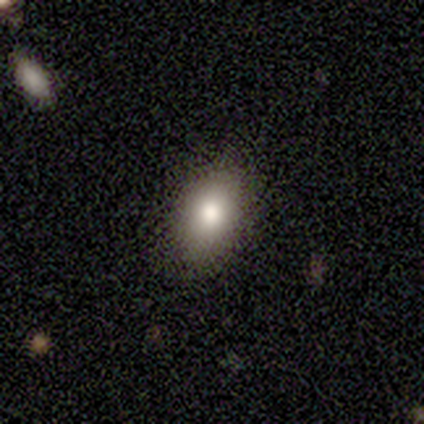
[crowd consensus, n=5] Volunteers were most divided on "merging": none: 75%, minor disturbance: 25%, major disturbance: 0%, merger: 0%. More confident: how rounded — in between (100%); smooth or featured — smooth (80%).